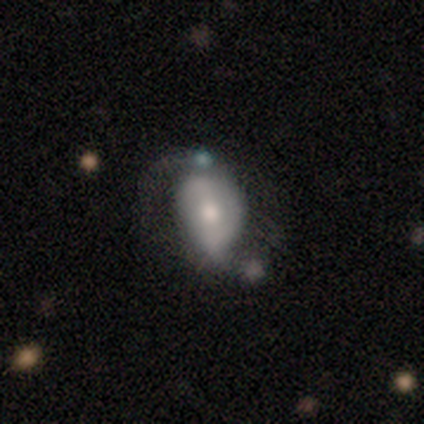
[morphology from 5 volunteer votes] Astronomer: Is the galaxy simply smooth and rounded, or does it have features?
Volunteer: smooth — 40%, tied with featured or disk at 40%.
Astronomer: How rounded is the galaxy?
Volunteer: in between — 100%.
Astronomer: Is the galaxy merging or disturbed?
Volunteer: none — 25%, tied with minor disturbance, major disturbance and merger at 25%.